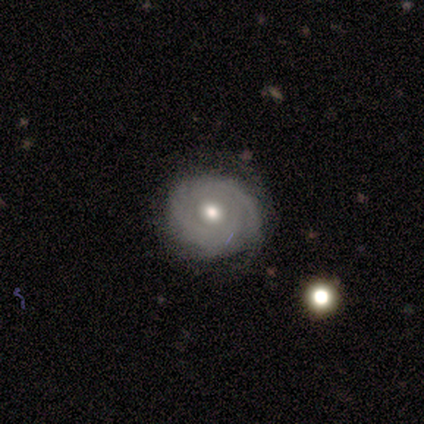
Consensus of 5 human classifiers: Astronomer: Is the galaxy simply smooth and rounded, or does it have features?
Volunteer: featured or disk — 100%.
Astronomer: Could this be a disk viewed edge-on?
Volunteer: no — 100%.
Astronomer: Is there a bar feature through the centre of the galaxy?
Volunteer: no — 60%.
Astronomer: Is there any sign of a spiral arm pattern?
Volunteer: yes — 80%.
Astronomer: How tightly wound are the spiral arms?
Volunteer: tight — 100%.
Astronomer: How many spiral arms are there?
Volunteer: can't tell — 75%.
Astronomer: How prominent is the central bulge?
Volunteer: moderate — 100%.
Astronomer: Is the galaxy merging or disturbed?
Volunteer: none — 80%.